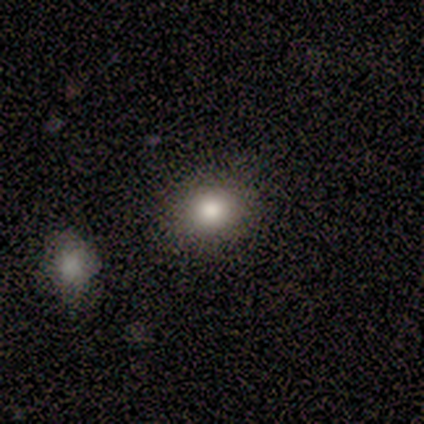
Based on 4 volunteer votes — A smooth galaxy with no disk features (100%) that is round (75%).

Vote fractions:
- Smooth or featured? smooth: 100% / featured or disk: 0% / star or artifact: 0%
- How rounded? round: 75% / in between: 25% / cigar-shaped: 0%
- Merging? none: 75% / minor disturbance: 25% / major disturbance: 0% / merger: 0%